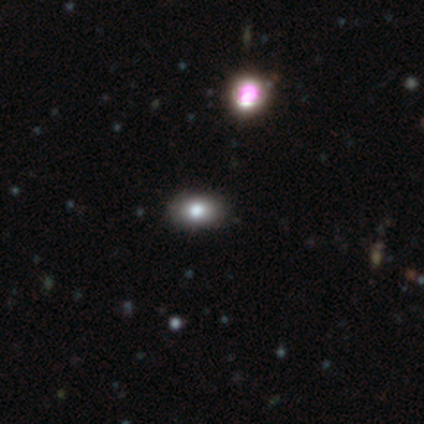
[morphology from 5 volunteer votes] Smooth or featured?
  - star or artifact: 60% *
  - smooth: 40%
  - featured or disk: 0%